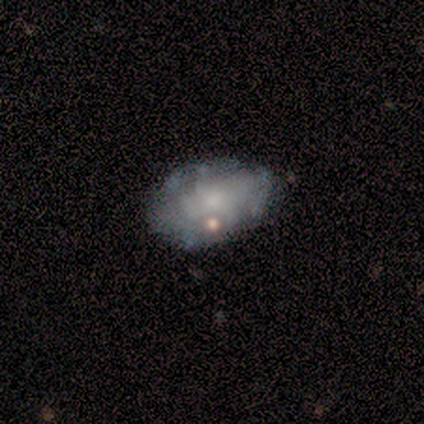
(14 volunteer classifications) This is possibly a featured or disk galaxy (50%). It is clearly not viewed edge-on (86%). Bar: clearly no (100%). Spiral arm pattern: possibly yes (50%, tied with no). Spiral arm count: likely can't tell (67%). Spiral winding: clearly tight (100%). Central bulge: likely small (67%). Merging: likely none (67%).